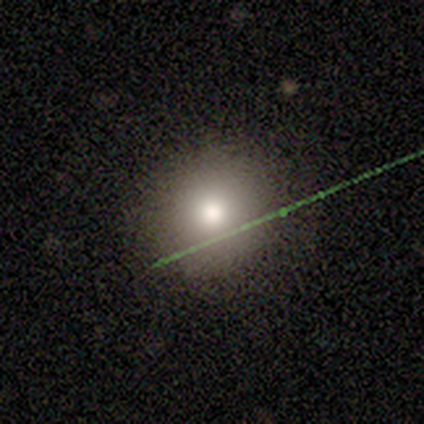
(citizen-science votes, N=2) Smooth or featured: smooth — 50% (tied with star or artifact — 50%)
How rounded: round — 100%
Merging: none — 100%